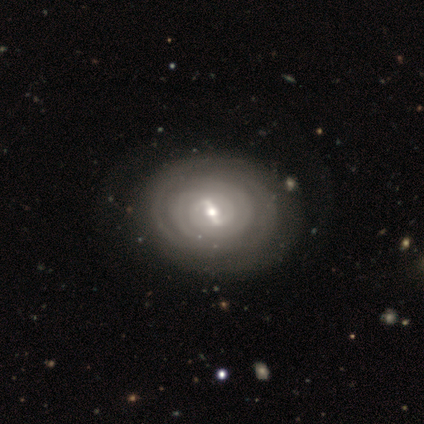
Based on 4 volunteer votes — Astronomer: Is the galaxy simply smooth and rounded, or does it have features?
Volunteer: featured or disk — 75%.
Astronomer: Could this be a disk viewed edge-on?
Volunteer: no — 100%.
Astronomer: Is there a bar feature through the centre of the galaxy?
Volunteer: weak — 67%.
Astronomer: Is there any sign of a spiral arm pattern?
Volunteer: yes — 100%.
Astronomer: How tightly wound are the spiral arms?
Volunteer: tight — 67%.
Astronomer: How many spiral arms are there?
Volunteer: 2 — 33%, tied with 3 and can't tell at 33%.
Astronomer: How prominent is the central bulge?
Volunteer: moderate — 67%.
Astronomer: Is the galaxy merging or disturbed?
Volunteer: none — 75%.